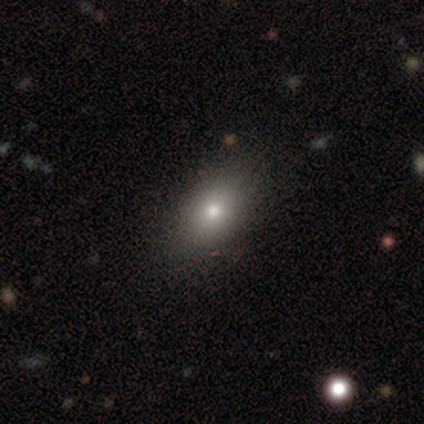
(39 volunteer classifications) Morphology: type=smooth (90%); roundness=in between (86%); merging=none (66%).